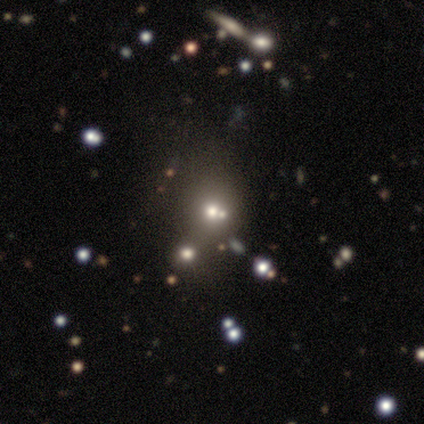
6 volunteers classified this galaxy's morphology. type=smooth (67%); roundness=round (100%); merging=merger (60%).